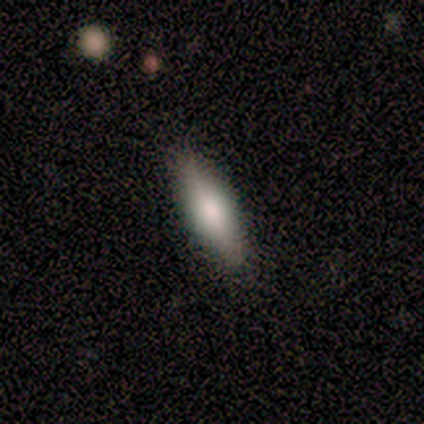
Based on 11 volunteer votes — A smooth galaxy with no disk features (55%) that is in between round and cigar-shaped (67%). Merging: none (89%).